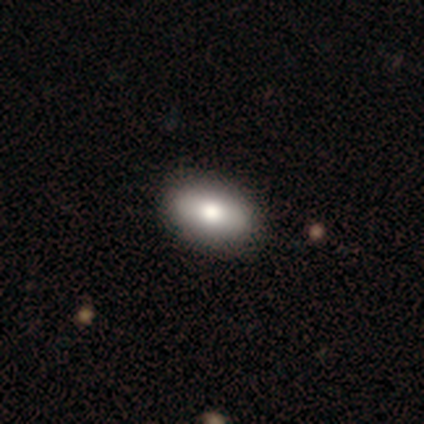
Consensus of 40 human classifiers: Morphology: type=smooth (90%); roundness=in between (92%); merging=none (92%).